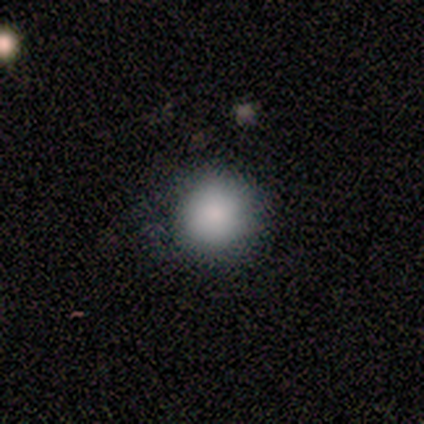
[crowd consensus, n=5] Volunteers were most divided on "smooth or featured": smooth: 80%, featured or disk: 20%, star or artifact: 0%. More confident: how rounded — round (100%); merging — none (80%).